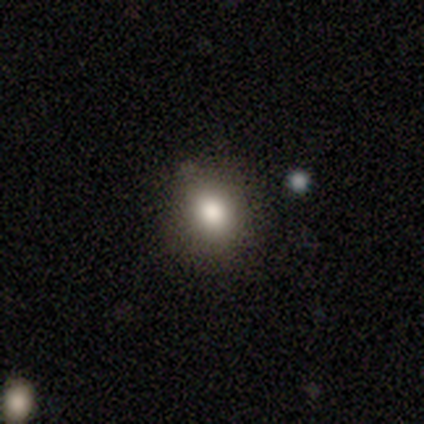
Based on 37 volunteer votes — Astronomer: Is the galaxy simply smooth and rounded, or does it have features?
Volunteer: smooth — 84%.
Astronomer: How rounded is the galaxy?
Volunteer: round — 68%.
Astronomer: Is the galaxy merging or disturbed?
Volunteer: none — 89%.